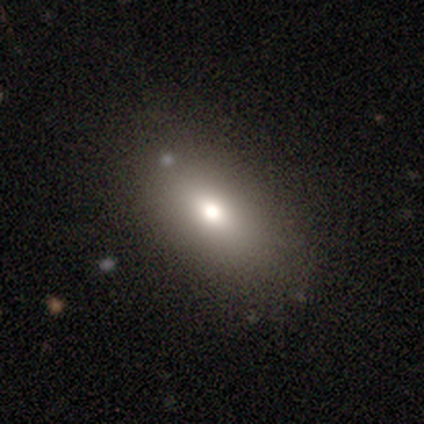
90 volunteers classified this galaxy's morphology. Smooth or featured? smooth (77%)
How rounded? in between (86%)
Merging? none (79%)